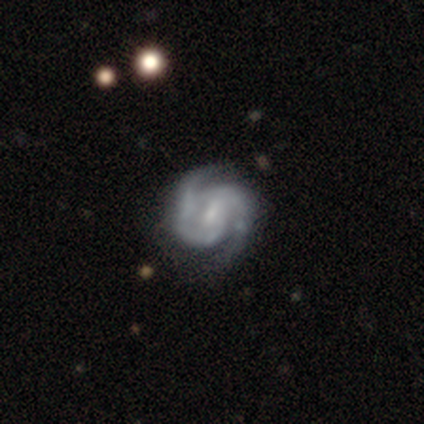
Q: Smooth or featured?
A: featured or disk (80%); runner-up: star or artifact (20%)
Q: Edge-on disk?
A: no (100%)
Q: Bar?
A: weak (50%); tied with: no (50%)
Q: Spiral arms?
A: yes (100%)
Q: Spiral winding?
A: medium (75%); runner-up: tight (25%)
Q: Spiral arm count?
A: 2 (100%)
Q: Bulge size?
A: none (75%); runner-up: moderate (25%)
Q: Merging?
A: none (75%); runner-up: minor disturbance (25%)